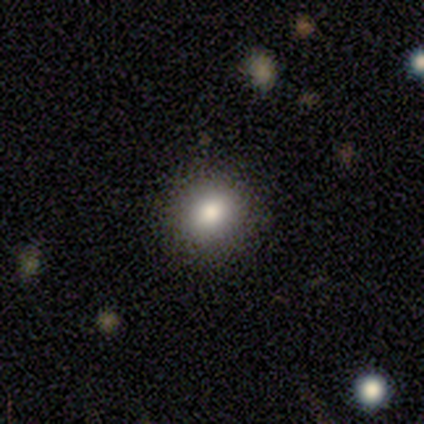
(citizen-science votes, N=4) Smooth or featured: smooth — 75% (star or artifact — 25%)
How rounded: round — 100%
Merging: none — 100%